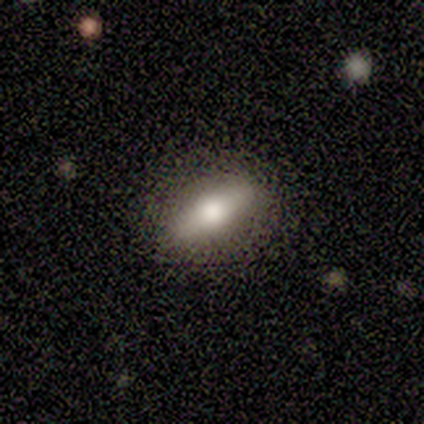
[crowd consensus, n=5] smooth-or-featured: smooth: 60% | featured or disk: 20% | star or artifact: 20%
  how-rounded: in between: 67% | cigar-shaped: 33% | round: 0%
  merging: none: 75% | major disturbance: 25% | minor disturbance: 0% | merger: 0%